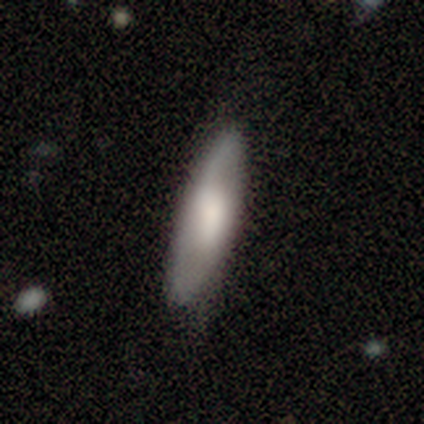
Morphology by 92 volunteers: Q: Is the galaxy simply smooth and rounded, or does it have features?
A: smooth — 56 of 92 (61%).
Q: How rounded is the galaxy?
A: cigar-shaped — 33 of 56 (59%).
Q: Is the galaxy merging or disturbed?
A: none — 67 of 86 (78%).